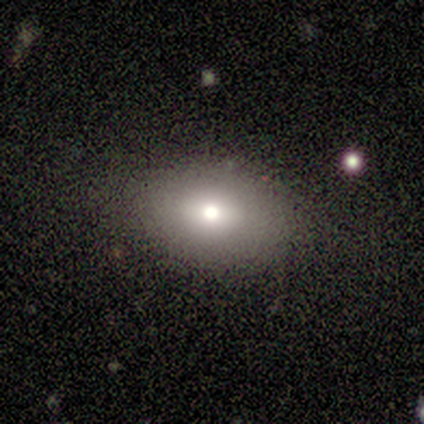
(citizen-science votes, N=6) Overall: smooth (83%). How rounded: in between (80%). Merging: none (100%).